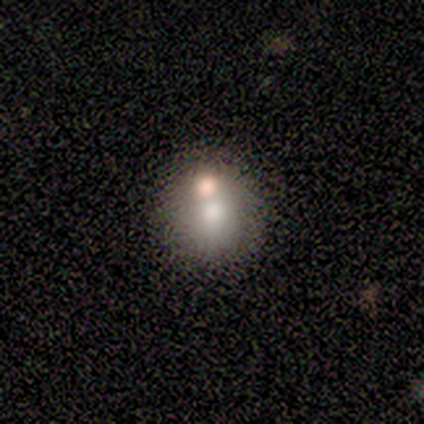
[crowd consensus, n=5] Smooth or featured? smooth (60%)
How rounded? round (67%)
Merging? merger (75%)